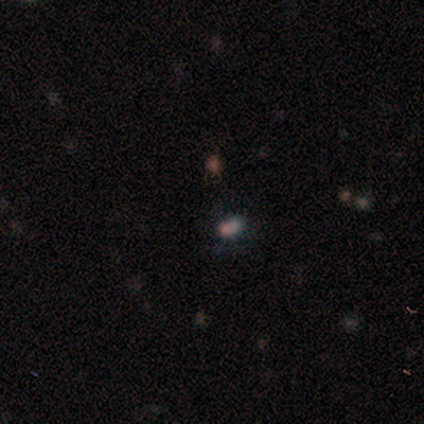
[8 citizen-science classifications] smooth-or-featured: smooth: 50% | star or artifact: 38% | featured or disk: 12%
  how-rounded: in between: 100% | round: 0% | cigar-shaped: 0%
  merging: minor disturbance: 60% | none: 20% | merger: 20% | major disturbance: 0%